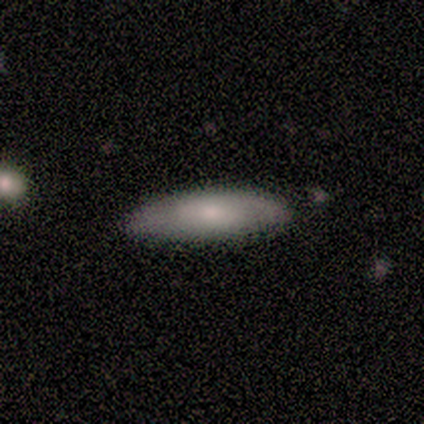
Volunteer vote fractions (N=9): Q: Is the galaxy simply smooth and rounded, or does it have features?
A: smooth — 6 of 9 (67%).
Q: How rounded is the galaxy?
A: cigar-shaped — 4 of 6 (67%).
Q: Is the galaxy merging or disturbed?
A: none — 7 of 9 (78%).